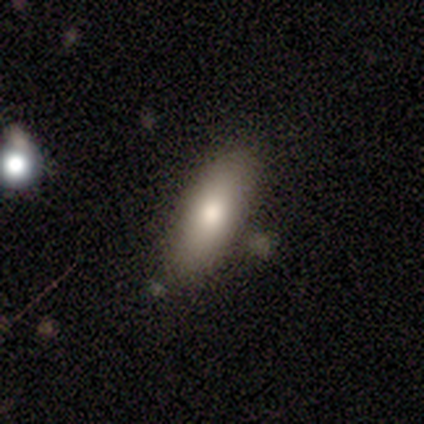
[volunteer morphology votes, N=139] type=smooth (78%); roundness=in between (80%); merging=none (87%).